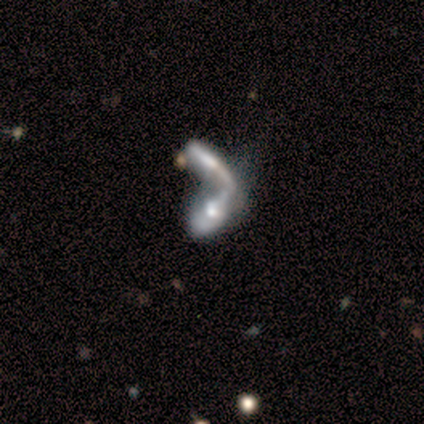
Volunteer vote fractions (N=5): Smooth or featured? featured or disk (60%)
Edge-on disk? no (100%)
Bar? no (67%)
Spiral arms? no (100%)
Bulge size? small (67%)
Merging? merger (75%)